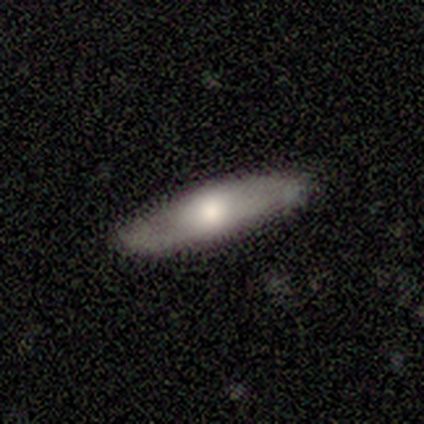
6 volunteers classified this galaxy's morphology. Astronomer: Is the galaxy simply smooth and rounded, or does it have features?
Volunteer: featured or disk — 67%.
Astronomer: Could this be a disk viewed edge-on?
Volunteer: no — 75%.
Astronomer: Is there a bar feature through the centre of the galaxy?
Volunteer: no — 67%.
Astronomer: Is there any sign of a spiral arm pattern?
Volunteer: yes — 100%.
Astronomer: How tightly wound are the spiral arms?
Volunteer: loose — 100%.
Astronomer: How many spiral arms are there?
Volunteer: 2 — 100%.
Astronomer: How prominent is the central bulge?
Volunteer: large — 33%, tied with moderate and small at 33%.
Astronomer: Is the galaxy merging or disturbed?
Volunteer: none — 100%.